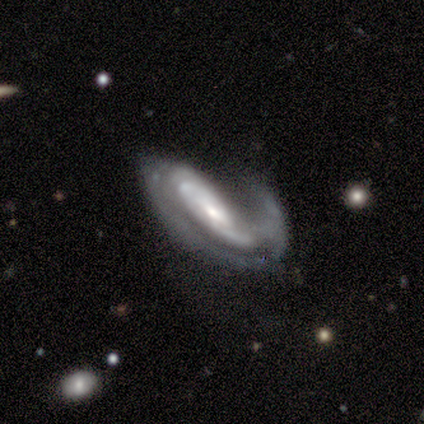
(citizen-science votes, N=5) featured or disk 100%, smooth 0%, star or artifact 0%. Down the decision tree: edge-on disk — no (80%); bar — no (50%); spiral arms — yes (100%); spiral arm count — 1 (50%); spiral winding — tight (50%, tied with loose); bulge size — small (50%); merging — major disturbance (60%).